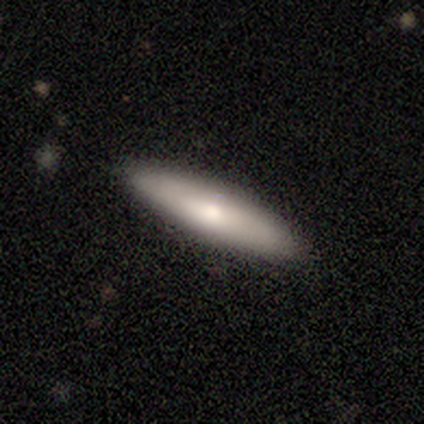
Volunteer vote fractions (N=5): This is likely a smooth galaxy (60%). How rounded: likely cigar-shaped (67%). Merging: clearly none (100%).